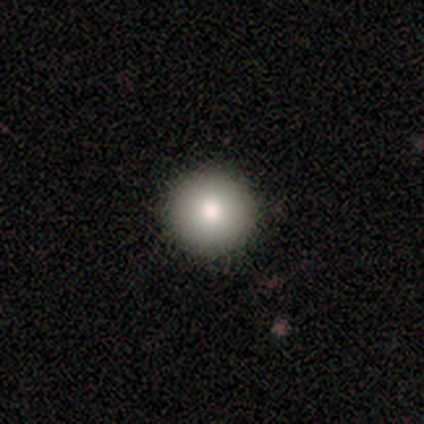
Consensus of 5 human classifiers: This is likely a smooth galaxy (60%). How rounded: clearly round (100%). Merging: clearly none (100%).